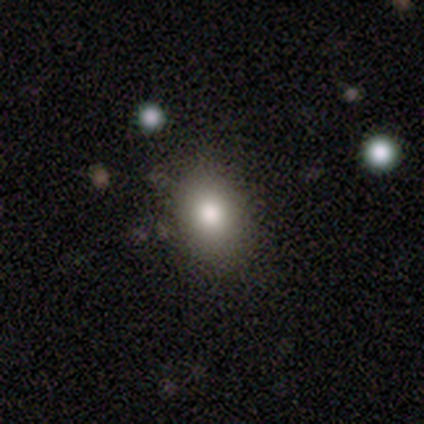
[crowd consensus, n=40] Volunteers were most divided on "merging": none: 55%, minor disturbance: 15%, major disturbance: 0%, merger: 0%. More confident: smooth or featured — smooth (90%); how rounded — in between (75%).